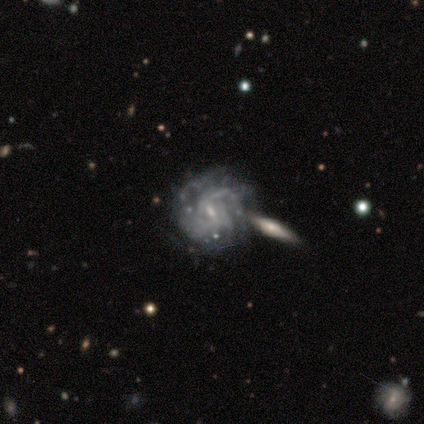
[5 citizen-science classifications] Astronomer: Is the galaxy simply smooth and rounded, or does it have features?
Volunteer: featured or disk — 60%.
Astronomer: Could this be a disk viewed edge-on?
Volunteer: no — 100%.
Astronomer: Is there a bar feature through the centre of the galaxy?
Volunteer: weak — 100%.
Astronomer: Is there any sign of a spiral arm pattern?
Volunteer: yes — 100%.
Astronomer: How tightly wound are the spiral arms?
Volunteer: tight — 33%, tied with medium and loose at 33%.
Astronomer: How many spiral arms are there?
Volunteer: can't tell — 67%.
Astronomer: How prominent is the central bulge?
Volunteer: small — 100%.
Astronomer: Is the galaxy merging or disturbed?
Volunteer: none — 75%.